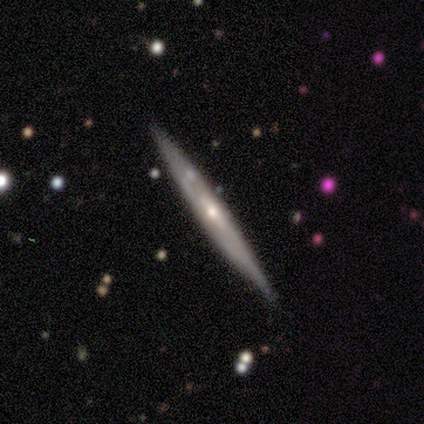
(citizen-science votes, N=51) smooth-or-featured: featured or disk: 73% | smooth: 22% | star or artifact: 6%
  disk-edge-on: yes: 97% | no: 3%
    edge-on-bulge: rounded: 67% | none: 28% | boxy: 6%
  merging: none: 85% | minor disturbance: 8% | merger: 6% | major disturbance: 0%